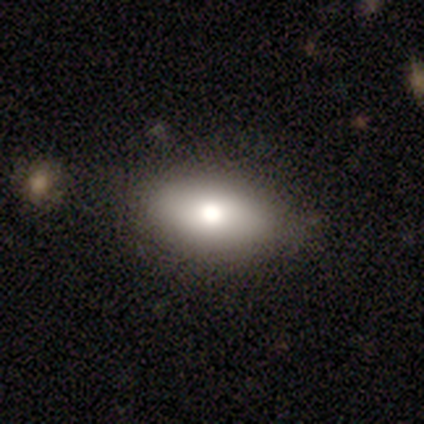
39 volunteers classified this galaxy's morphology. A smooth galaxy with no disk features (59%) that is in between round and cigar-shaped (83%). Merging: none (85%).